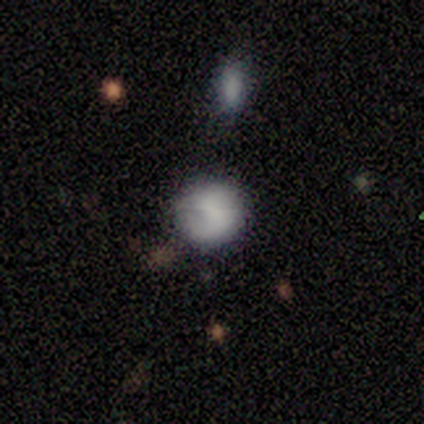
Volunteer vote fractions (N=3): This appears to be a smooth galaxy with no disk features (33%, tied with featured or disk and star or artifact) that is round (100%). Merging: minor disturbance (50%, tied with merger).